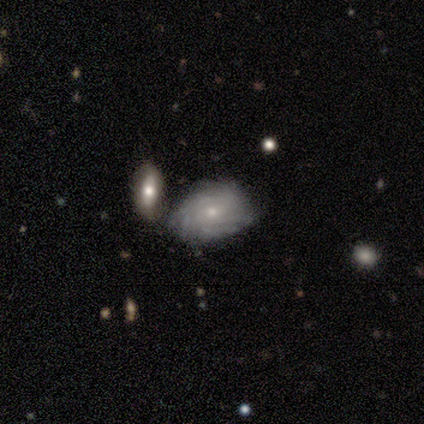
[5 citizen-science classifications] A featured or disk galaxy (100%) with no bar (100%), 3 (33%, tied with 4 and can't tell) medium (67%) spiral arms (60%) and a small central bulge (80%). Merging: none (40%, tied with minor disturbance).